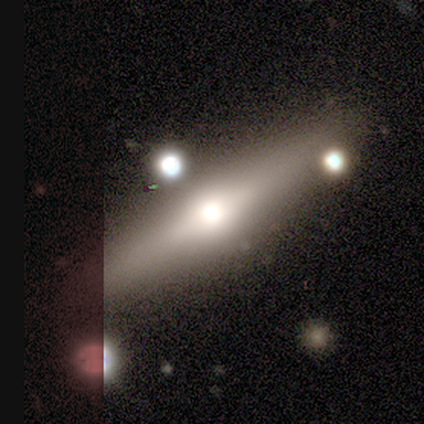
Smooth or featured? featured or disk (100%)
Edge-on disk? yes (100%)
Edge-on bulge? rounded (100%)
Merging? none (50%, tied with minor disturbance)